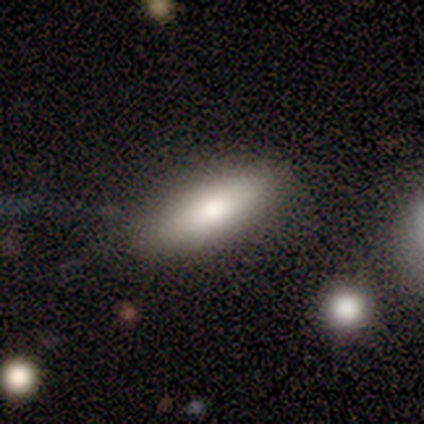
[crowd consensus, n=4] Smooth or featured? 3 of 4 (75%) said smooth. How rounded? 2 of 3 (67%) said cigar-shaped. Merging? 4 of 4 (100%) said none.